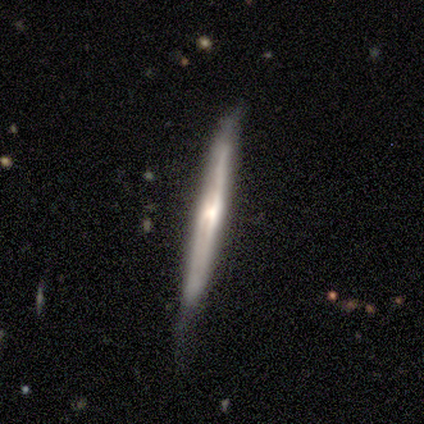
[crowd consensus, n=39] Volunteers were most divided on "edge-on bulge": rounded: 52%, none: 37%, boxy: 11%. More confident: edge-on disk — yes (96%); smooth or featured — featured or disk (72%); merging — none (62%).